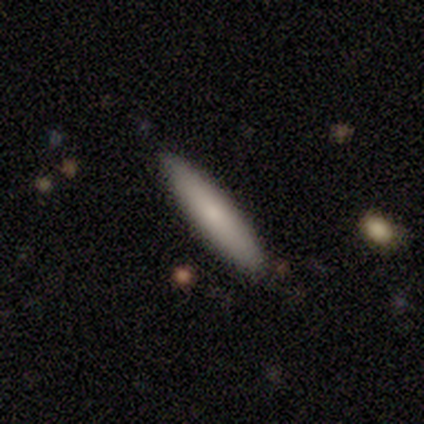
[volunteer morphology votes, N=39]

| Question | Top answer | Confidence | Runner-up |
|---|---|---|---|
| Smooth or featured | smooth | 87% | featured or disk (8%) |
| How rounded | cigar-shaped | 88% | in between (12%) |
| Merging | none | 89% | minor disturbance (11%) |